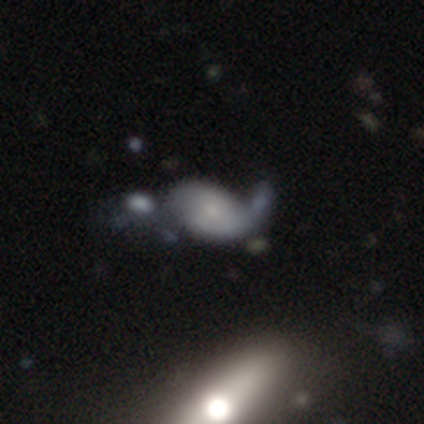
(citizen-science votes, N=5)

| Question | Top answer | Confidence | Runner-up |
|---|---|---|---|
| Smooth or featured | smooth | 40% | tied: featured or disk (40%) |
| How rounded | in between | 100% | — |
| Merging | minor disturbance | 50% | none (25%) |